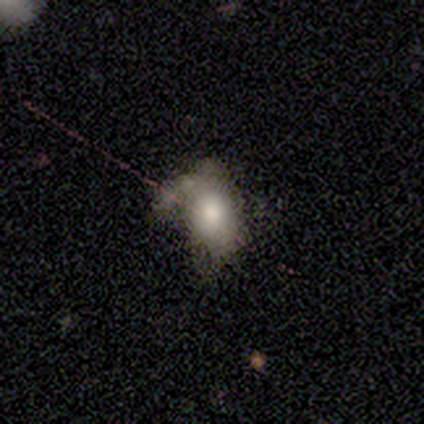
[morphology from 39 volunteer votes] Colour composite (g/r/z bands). It shows a smooth galaxy with no disk features (59%) that is in between round and cigar-shaped (91%). Merging: none (33%).